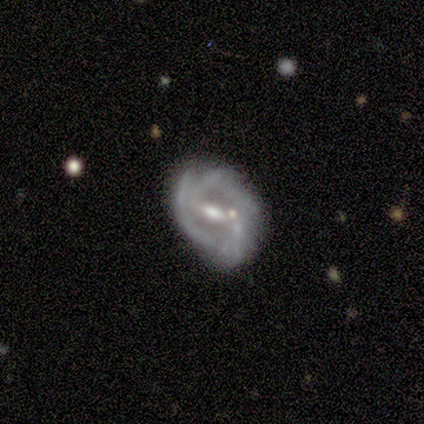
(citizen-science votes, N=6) Smooth or featured: featured or disk — 83% (star or artifact — 17%)
Edge-on disk: no — 100%
Bar: strong — 60% (weak — 40%)
Spiral arms: yes — 80% (no — 20%)
Spiral winding: medium — 75% (tight — 25%)
Spiral arm count: 2 — 50% (3 — 25%)
Bulge size: moderate — 60% (small — 20%)
Merging: minor disturbance — 60% (none — 40%)